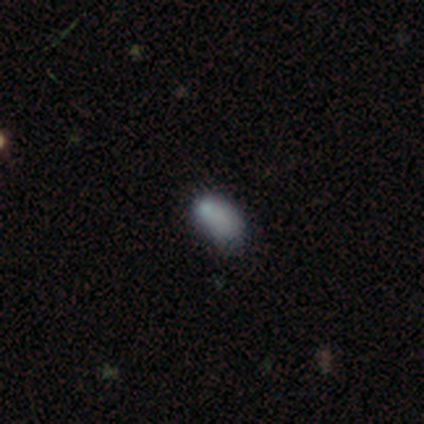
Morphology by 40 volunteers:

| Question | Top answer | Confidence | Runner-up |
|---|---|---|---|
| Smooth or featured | smooth | 82% | star or artifact (15%) |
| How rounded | in between | 94% | round (3%) |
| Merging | none | 53% | minor disturbance (41%) |